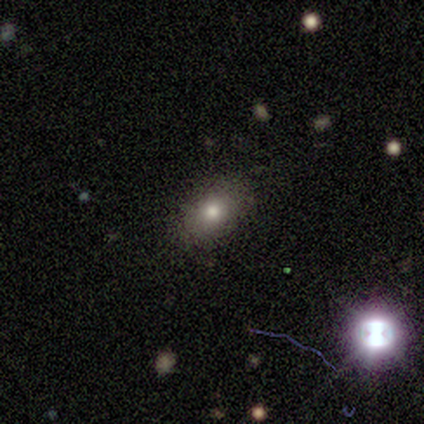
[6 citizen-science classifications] This is likely a smooth galaxy (67%). How rounded: likely in between (75%). Merging: clearly none (100%).